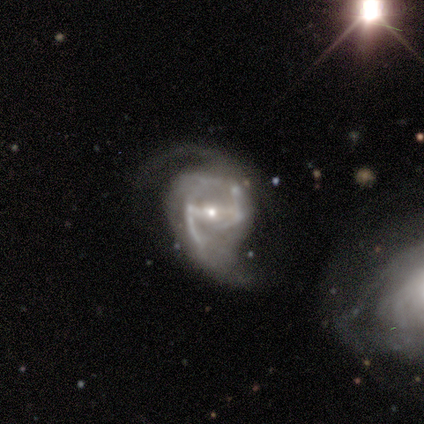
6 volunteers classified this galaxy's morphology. Smooth or featured?
  - featured or disk: 100% *
  - smooth: 0%
  - star or artifact: 0%
Edge-on disk?
  - no: 100% *
  - yes: 0%
Bar?
  - strong: 83% *
  - weak: 17%
  - no: 0%
Spiral arms?
  - yes: 100% *
  - no: 0%
Spiral winding?
  - medium: 67% *
  - loose: 33%
  - tight: 0%
Spiral arm count?
  - 2: 83% *
  - 3: 17%
  - 1: 0%
  - 4: 0%
  - more than 4: 0%
  - can't tell: 0%
Bulge size?
  - small: 83% *
  - moderate: 17%
  - dominant: 0%
  - large: 0%
  - none: 0%
Merging?
  - minor disturbance: 50% *
  - none: 33%
  - major disturbance: 17%
  - merger: 0%